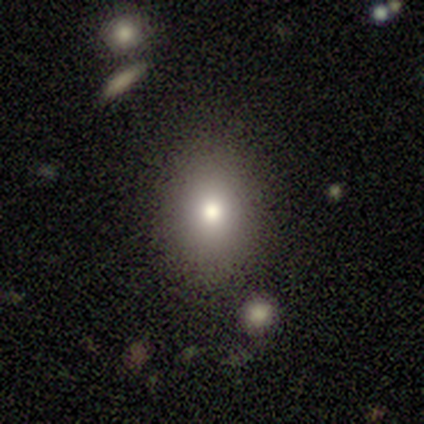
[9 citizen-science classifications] A smooth galaxy with no disk features (89%) that is in between round and cigar-shaped (75%). Merging: none (88%).